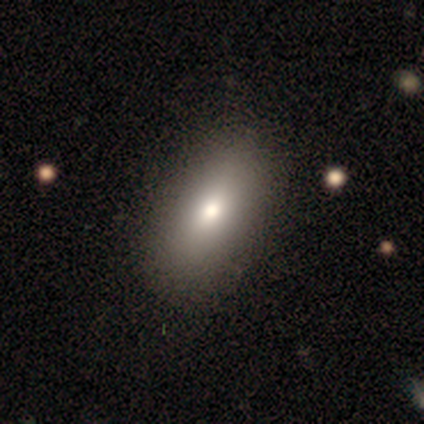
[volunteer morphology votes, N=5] smooth-or-featured: smooth: 60% | featured or disk: 40% | star or artifact: 0%
  how-rounded: in between: 67% | cigar-shaped: 33% | round: 0%
  merging: none: 100% | minor disturbance: 0% | major disturbance: 0% | merger: 0%